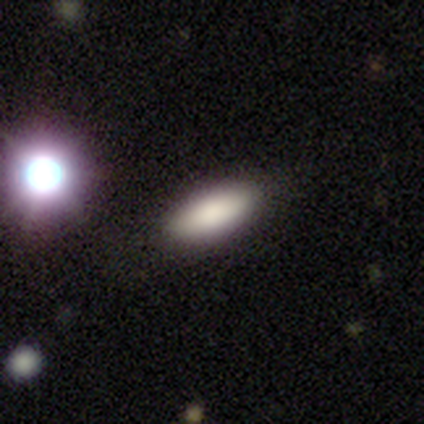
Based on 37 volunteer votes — smooth-or-featured: smooth: 73% | featured or disk: 14% | star or artifact: 14%
  how-rounded: in between: 67% | cigar-shaped: 33% | round: 0%
  merging: none: 91% | minor disturbance: 6% | major disturbance: 3% | merger: 0%